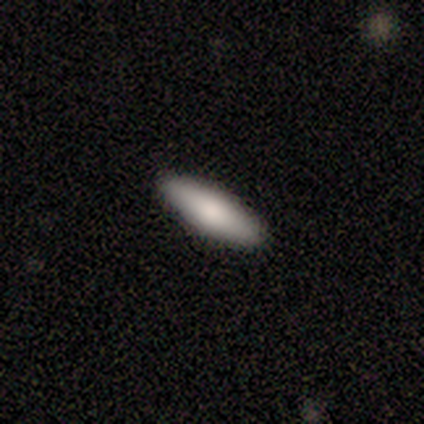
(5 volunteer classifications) Morphology: type=smooth (100%); roundness=in between (60%); merging=none (80%).